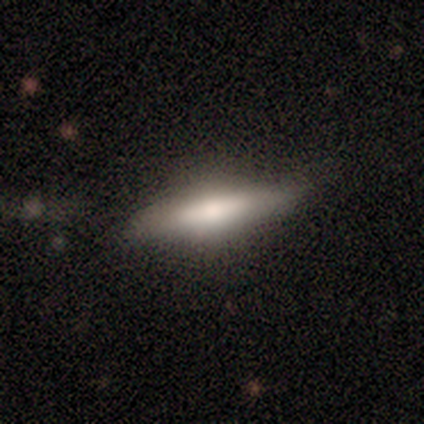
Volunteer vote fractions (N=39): Smooth or featured?
  - smooth: 59% *
  - featured or disk: 36%
  - star or artifact: 5%
How rounded?
  - cigar-shaped: 61% *
  - in between: 39%
  - round: 0%
Merging?
  - none: 84% *
  - minor disturbance: 14%
  - major disturbance: 3%
  - merger: 0%